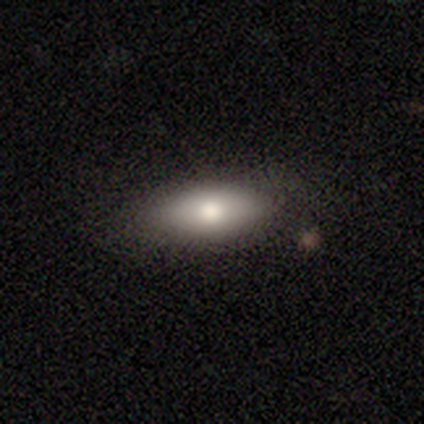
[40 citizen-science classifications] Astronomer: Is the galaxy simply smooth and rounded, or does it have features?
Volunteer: smooth — 72%.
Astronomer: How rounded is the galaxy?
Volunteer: in between — 90%.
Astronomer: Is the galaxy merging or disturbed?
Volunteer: none — 62%.